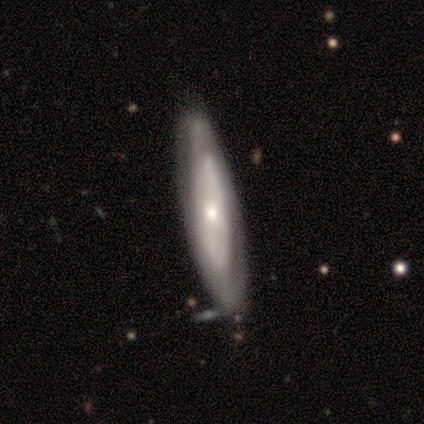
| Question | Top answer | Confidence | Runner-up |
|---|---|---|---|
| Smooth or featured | featured or disk | 60% | smooth (40%) |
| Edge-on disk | no | 67% | yes (33%) |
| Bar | no | 100% | — |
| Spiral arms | yes | 100% | — |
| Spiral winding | tight | 100% | — |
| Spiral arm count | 2 | 50% | tied: can't tell (50%) |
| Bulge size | moderate | 50% | tied: small (50%) |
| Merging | none | 60% | minor disturbance (20%) |